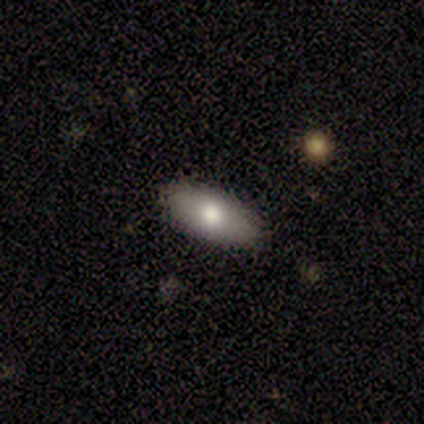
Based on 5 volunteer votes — smooth-or-featured: smooth: 100% | featured or disk: 0% | star or artifact: 0%
  how-rounded: in between: 100% | round: 0% | cigar-shaped: 0%
  merging: none: 100% | minor disturbance: 0% | major disturbance: 0% | merger: 0%